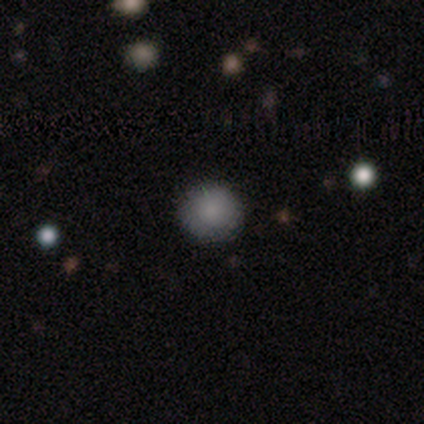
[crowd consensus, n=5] Smooth or featured? 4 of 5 (80%) said smooth. How rounded? 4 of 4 (100%) said round. Merging? 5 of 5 (100%) said none.